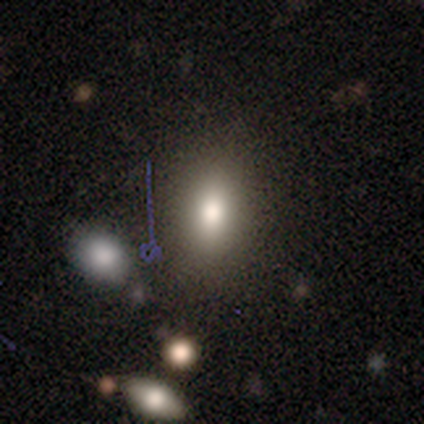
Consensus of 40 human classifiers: Smooth or featured? 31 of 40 (78%) said smooth. How rounded? 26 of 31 (84%) said in between. Merging? 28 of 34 (82%) said none.